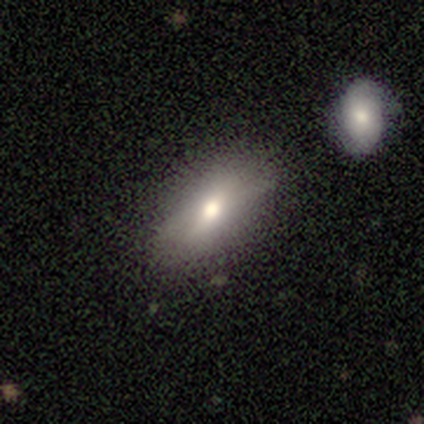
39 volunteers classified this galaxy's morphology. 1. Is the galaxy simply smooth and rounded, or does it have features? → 82% smooth, 10% featured or disk, 8% star or artifact.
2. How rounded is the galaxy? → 94% in between, 3% round, 3% cigar-shaped.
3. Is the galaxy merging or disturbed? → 78% none, 17% minor disturbance, 3% major disturbance, 3% merger.